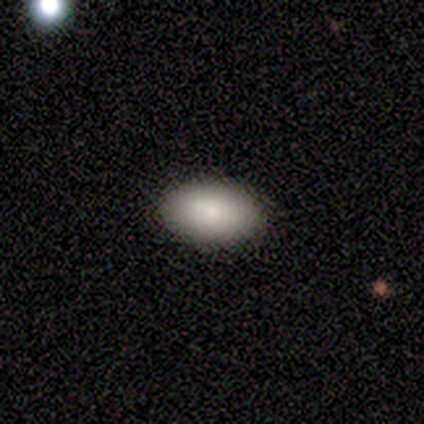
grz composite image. It shows a smooth galaxy with no disk features (100%) that is in between round and cigar-shaped (100%). Merging: none (75%).